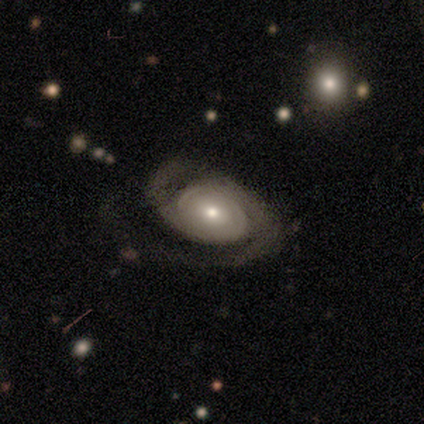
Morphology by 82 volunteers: Q: Smooth or featured?
A: featured or disk (78%); runner-up: smooth (15%)
Q: Edge-on disk?
A: no (97%); runner-up: yes (3%)
Q: Bar?
A: no (77%); runner-up: weak (16%)
Q: Spiral arms?
A: yes (94%); runner-up: no (6%)
Q: Spiral winding?
A: medium (48%); runner-up: tight (40%)
Q: Spiral arm count?
A: 2 (83%); runner-up: can't tell (9%)
Q: Bulge size?
A: moderate (45%); runner-up: small (44%)
Q: Merging?
A: none (58%); runner-up: major disturbance (22%)